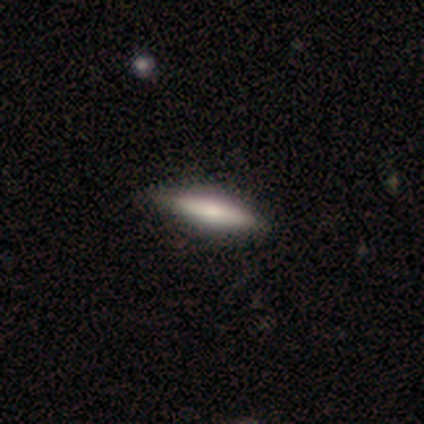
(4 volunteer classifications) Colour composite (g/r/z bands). It shows a featured or disk galaxy (100%) viewed edge-on (75%) with a rounded central bulge (100%). Merging: none (50%).